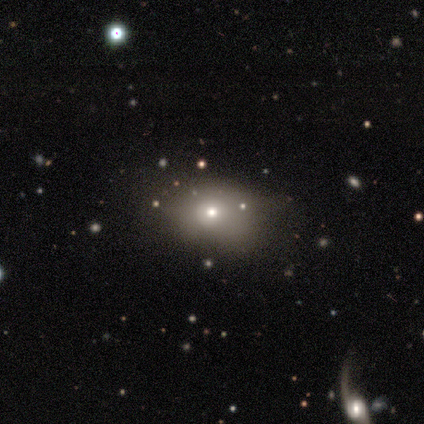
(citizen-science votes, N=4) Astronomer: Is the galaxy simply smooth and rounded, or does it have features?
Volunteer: star or artifact — 50%.